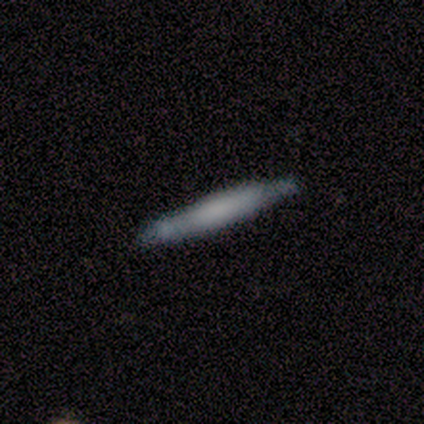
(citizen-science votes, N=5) smooth_or_featured: smooth (p=0.60) [alt: featured or disk p=0.40]
how_rounded: cigar-shaped (p=1.00)
merging: none (p=1.00)